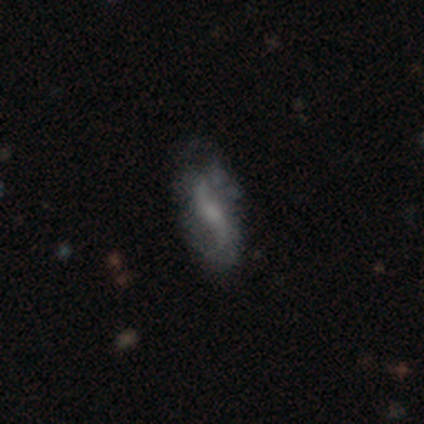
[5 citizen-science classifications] Volunteers were most divided on "bulge size" (3-way tie): moderate: 33%, small: 33%, none: 33%, dominant: 0%, large: 0%. More confident: edge-on disk — no (100%); spiral arms — yes (100%); spiral winding — loose (100%); spiral arm count — 2 (100%); merging — none (100%); bar — weak (67%); smooth or featured — featured or disk (60%).